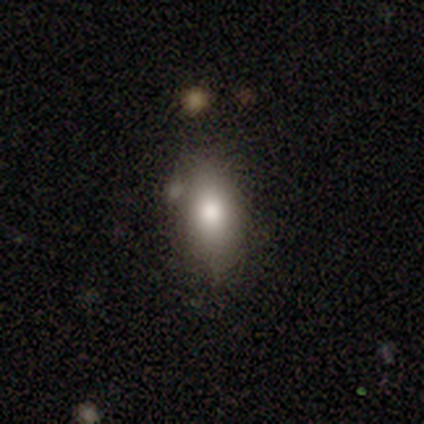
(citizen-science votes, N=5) Smooth or featured: smooth — 60% (featured or disk — 40%)
How rounded: in between — 100%
Merging: none — 100%